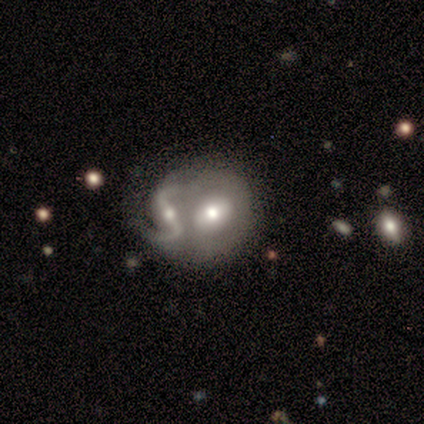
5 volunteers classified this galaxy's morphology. smooth_or_featured: featured or disk (p=0.60) [alt: smooth p=0.40]
disk_edge_on: no (p=1.00)
bar: strong (p=1.00)
has_spiral_arms: yes (p=0.67) [alt: no p=0.33]
spiral_winding: loose (p=1.00)
spiral_arm_count: 2 (p=1.00)
bulge_size: moderate (p=0.67) [alt: small p=0.33]
merging: none (p=0.60) [alt: merger p=0.40]